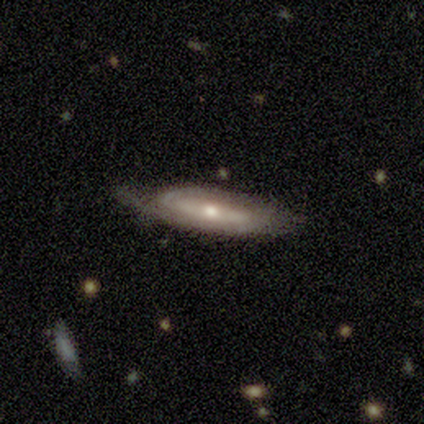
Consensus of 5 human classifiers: This appears to be a featured or disk galaxy (80%) with no bar (67%), no spiral arms (67%) and a small central bulge (67%). Merging: minor disturbance (75%).